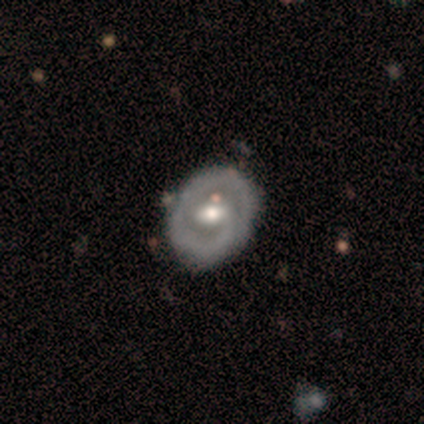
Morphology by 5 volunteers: Smooth or featured? featured or disk (100%)
Edge-on disk? no (100%)
Bar? weak (80%)
Spiral arms? yes (60%)
Spiral winding? tight (67%)
Spiral arm count? 1 (67%)
Bulge size? moderate (80%)
Merging? none (100%)